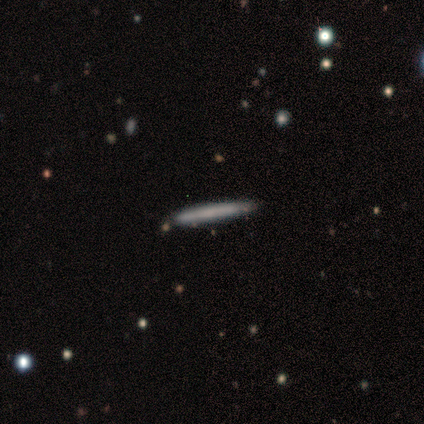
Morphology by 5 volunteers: Q: Smooth or featured?
A: featured or disk (100%)
Q: Edge-on disk?
A: yes (100%)
Q: Edge-on bulge?
A: none (100%)
Q: Merging?
A: none (100%)